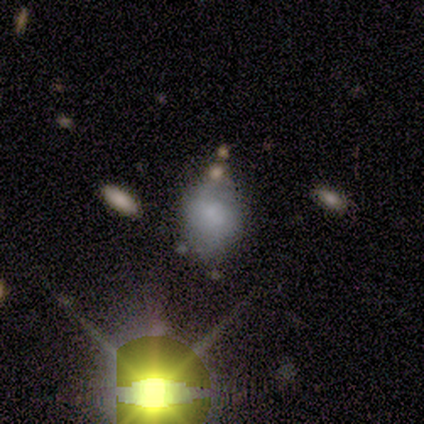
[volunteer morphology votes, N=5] Smooth or featured? smooth (80%)
How rounded? round (50%, tied with in between)
Merging? none (50%, tied with minor disturbance)